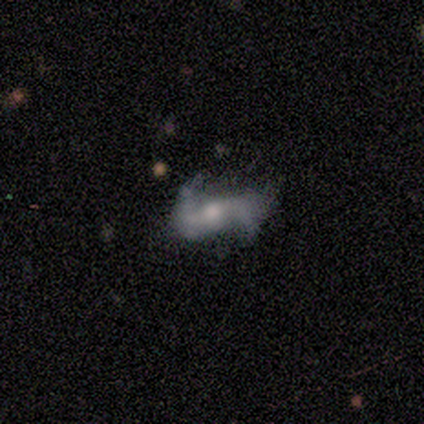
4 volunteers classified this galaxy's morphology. featured or disk 100%, smooth 0%, star or artifact 0%. Down the decision tree: edge-on disk — no (100%); bar — strong (50%); spiral arms — yes (100%); spiral arm count — 2 (100%); spiral winding — loose (75%); bulge size — moderate (75%); merging — none (50%, tied with minor disturbance).